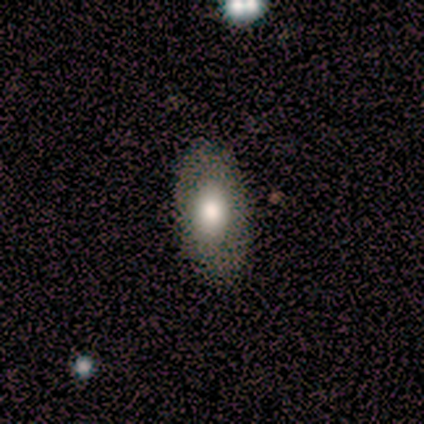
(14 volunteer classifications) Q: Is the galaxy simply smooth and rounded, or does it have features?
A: smooth — 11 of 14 (79%).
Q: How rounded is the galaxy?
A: in between — 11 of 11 (100%).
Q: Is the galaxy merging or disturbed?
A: none — 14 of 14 (100%).